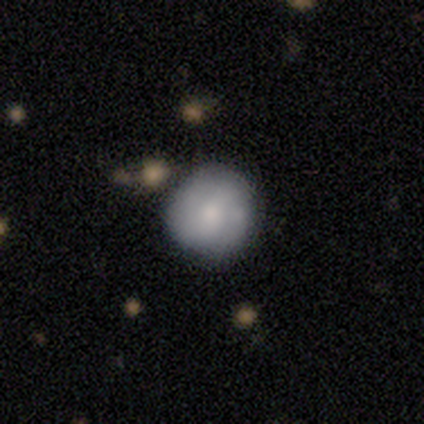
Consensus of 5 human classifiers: Smooth or featured: smooth — 80% (featured or disk — 20%)
How rounded: round — 100%
Merging: none — 60% (minor disturbance — 20%)